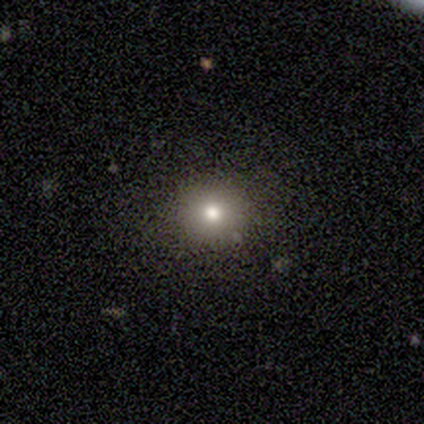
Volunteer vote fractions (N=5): smooth-or-featured: smooth: 60% | featured or disk: 20% | star or artifact: 20%
  how-rounded: round: 100% | in between: 0% | cigar-shaped: 0%
  merging: none: 100% | minor disturbance: 0% | major disturbance: 0% | merger: 0%